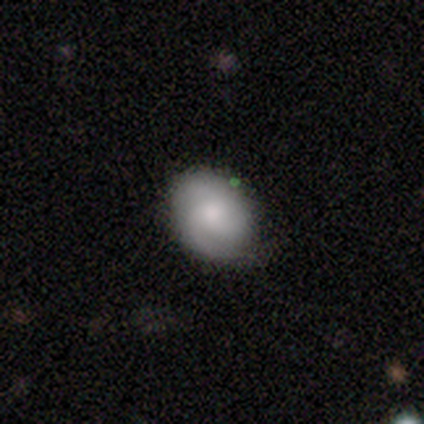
Smooth or featured? featured or disk (48%)
Edge-on disk? no (95%)
Bar? no (67%)
Spiral arms? yes (83%)
Spiral winding? tight (47%)
Spiral arm count? 2 (53%)
Bulge size? moderate (50%)
Merging? none (76%)